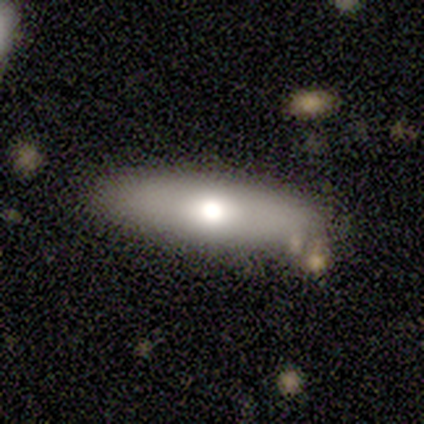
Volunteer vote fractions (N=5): Smooth or featured: smooth — 100%
How rounded: in between — 60% (cigar-shaped — 40%)
Merging: none — 100%